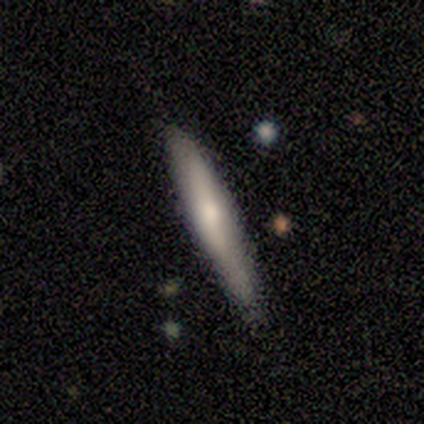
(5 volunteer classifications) A smooth galaxy with no disk features (80%) that is cigar-shaped (100%).

Vote fractions:
- Smooth or featured? smooth: 80% / featured or disk: 20% / star or artifact: 0%
- How rounded? cigar-shaped: 100% / round: 0% / in between: 0%
- Merging? none: 100% / minor disturbance: 0% / major disturbance: 0% / merger: 0%